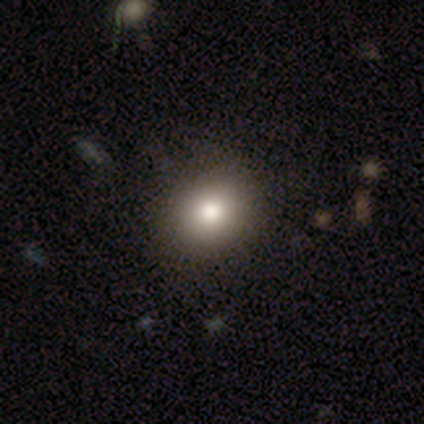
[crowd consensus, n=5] Smooth or featured? 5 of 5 (100%) said smooth. How rounded? 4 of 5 (80%) said round. Merging? 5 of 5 (100%) said none.